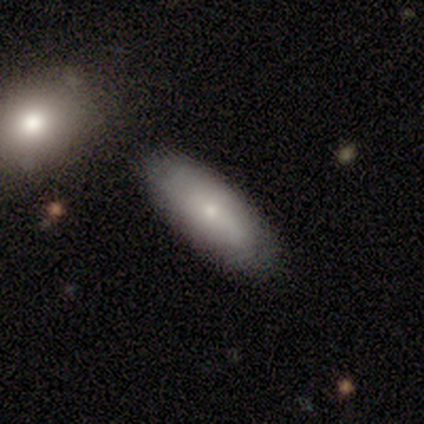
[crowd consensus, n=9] A smooth galaxy with no disk features (78%) that is in between round and cigar-shaped (71%).

Vote fractions:
- Smooth or featured? smooth: 78% / featured or disk: 22% / star or artifact: 0%
- How rounded? in between: 71% / cigar-shaped: 29% / round: 0%
- Merging? none: 78% / minor disturbance: 22% / major disturbance: 0% / merger: 0%